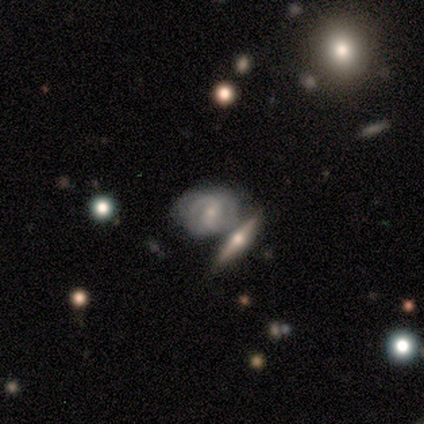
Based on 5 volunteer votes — smooth_or_featured: featured or disk (p=0.60) [alt: smooth p=0.20]
disk_edge_on: no (p=1.00)
bar: strong (p=0.67) [alt: weak p=0.33]
has_spiral_arms: yes (p=1.00)
spiral_winding: medium (p=0.67) [alt: loose p=0.33]
spiral_arm_count: 2 (p=1.00)
bulge_size: small (p=0.67) [alt: moderate p=0.33]
merging: none (p=0.50) [alt: minor disturbance p=0.25]